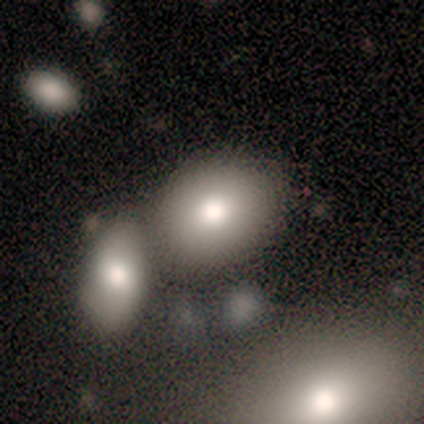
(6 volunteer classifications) Smooth or featured: smooth — 83% (star or artifact — 17%)
How rounded: round — 80% (in between — 20%)
Merging: none — 60% (merger — 40%)